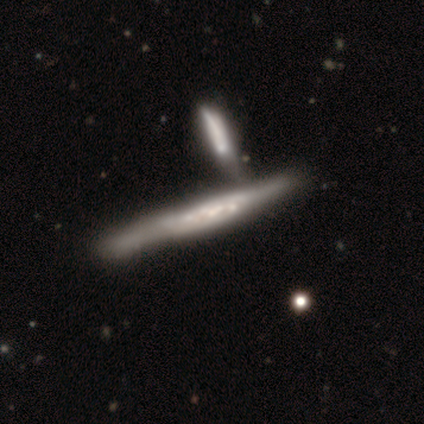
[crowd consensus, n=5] Smooth or featured?
  - featured or disk: 60% *
  - smooth: 20%
  - star or artifact: 20%
Edge-on disk?
  - yes: 100% *
  - no: 0%
Edge-on bulge?
  - none: 67% *
  - rounded: 33%
  - boxy: 0%
Merging?
  - merger: 75% *
  - none: 25%
  - minor disturbance: 0%
  - major disturbance: 0%